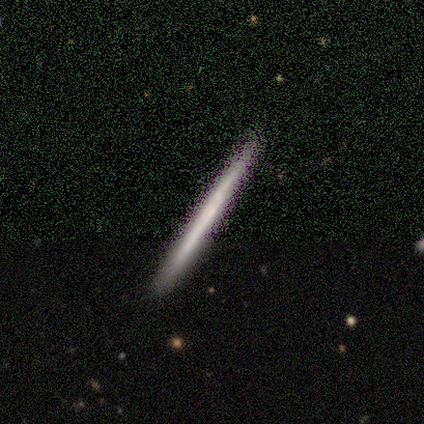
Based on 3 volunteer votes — Overall: smooth (100%). How rounded: cigar-shaped (100%). Merging: none (100%).